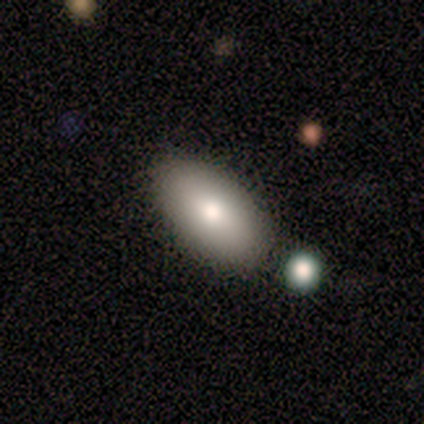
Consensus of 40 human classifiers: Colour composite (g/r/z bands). It shows a smooth galaxy with no disk features (88%) that is in between round and cigar-shaped (100%). Merging: none (76%).